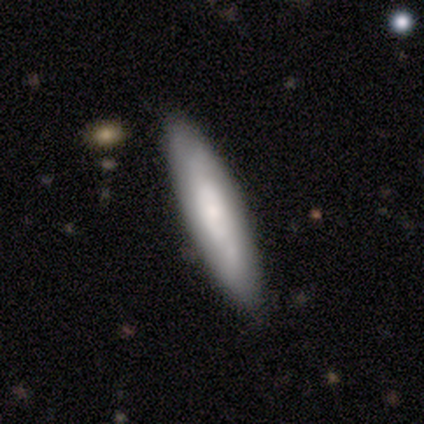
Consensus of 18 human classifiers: Overall: featured or disk (56%; smooth 44%). Edge-on disk: no (60%; yes 40%). Bar: no (67%; weak 33%). Spiral arms: yes (50%, tied with no). Spiral arm count: 2 (67%; can't tell 33%). Spiral winding: tight (33%, tied with medium and loose). Bulge size: none (50%; small 33%). Merging: none (89%).